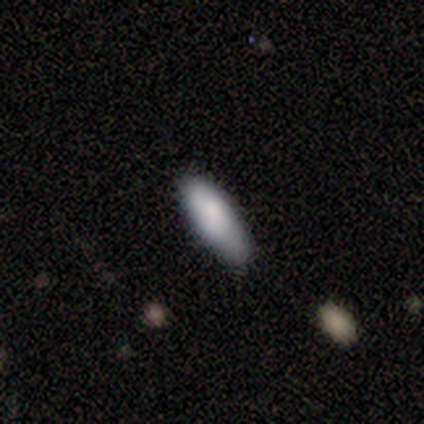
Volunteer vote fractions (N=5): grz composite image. It shows a smooth galaxy with no disk features (100%) that is cigar-shaped (80%). Merging: none (80%).